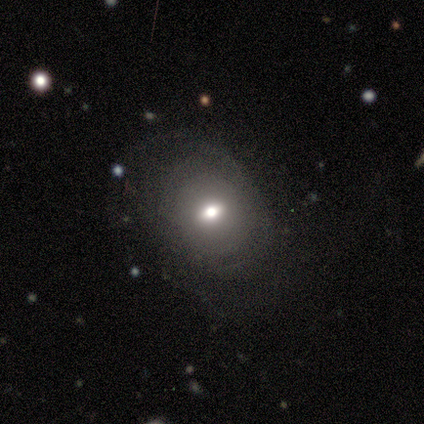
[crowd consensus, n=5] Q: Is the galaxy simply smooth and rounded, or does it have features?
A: featured or disk — 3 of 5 (60%).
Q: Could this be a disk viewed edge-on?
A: no — 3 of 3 (100%).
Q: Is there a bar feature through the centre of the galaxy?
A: no — 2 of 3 (67%).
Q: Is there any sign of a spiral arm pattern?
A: no — 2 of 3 (67%).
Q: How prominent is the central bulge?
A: moderate — 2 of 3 (67%).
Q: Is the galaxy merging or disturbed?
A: none — 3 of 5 (60%).